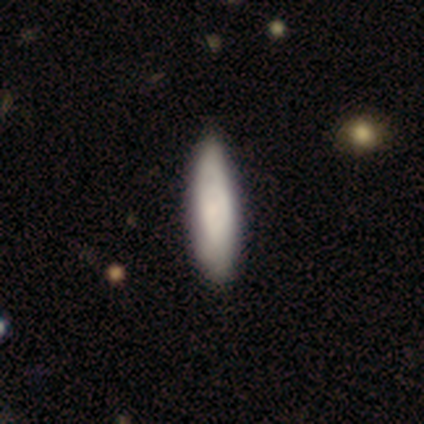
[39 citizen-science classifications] Morphology: type=smooth (74%); roundness=in between (52%); merging=none (63%).